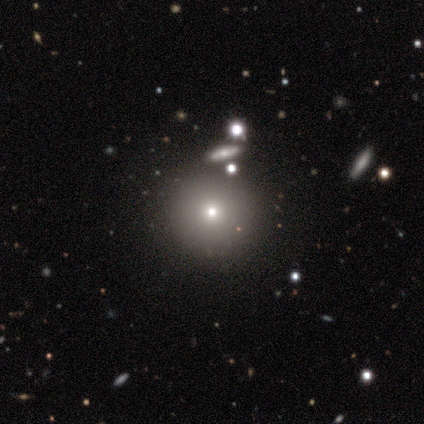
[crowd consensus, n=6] Smooth or featured?
  - smooth: 83% *
  - star or artifact: 17%
  - featured or disk: 0%
How rounded?
  - round: 100% *
  - in between: 0%
  - cigar-shaped: 0%
Merging?
  - none: 100% *
  - minor disturbance: 0%
  - major disturbance: 0%
  - merger: 0%